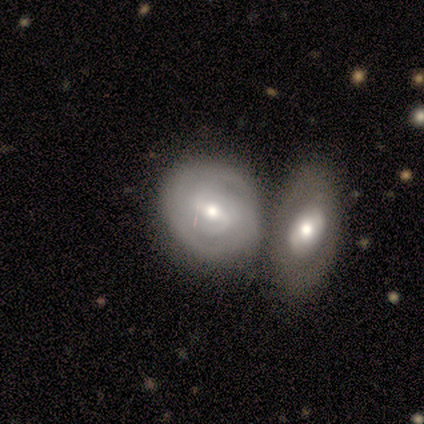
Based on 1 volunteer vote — featured or disk 100%, smooth 0%, star or artifact 0%. Down the decision tree: edge-on disk — no (100%); bar — weak (100%); spiral arms — yes (100%); spiral arm count — 2 (100%); spiral winding — tight (100%); bulge size — moderate (100%); merging — merger (100%).